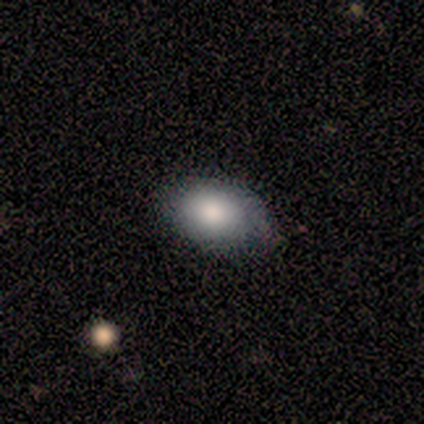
smooth_or_featured: smooth (p=0.80) [alt: featured or disk p=0.20]
how_rounded: in between (p=1.00)
merging: none (p=0.60) [alt: minor disturbance p=0.40]